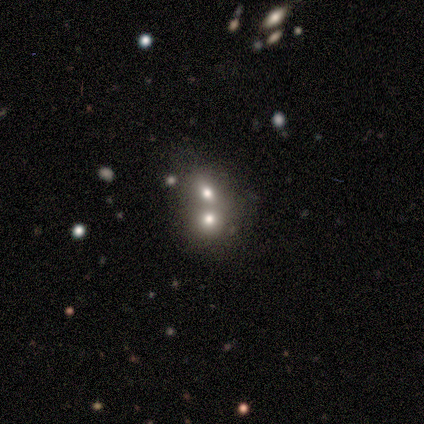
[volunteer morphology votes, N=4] Volunteers were most divided on "how rounded" (2-way tie): round: 50%, in between: 50%, cigar-shaped: 0%. More confident: merging — merger (100%); smooth or featured — smooth (50%).